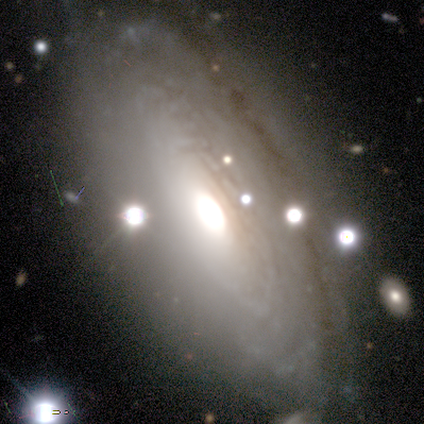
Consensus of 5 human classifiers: smooth-or-featured: featured or disk: 80% | smooth: 20% | star or artifact: 0%
  disk-edge-on: no: 75% | yes: 25%
    bar: no: 100% | strong: 0% | weak: 0%
    has-spiral-arms: yes: 67% | no: 33%
      spiral-winding: tight: 100% | medium: 0% | loose: 0%
      spiral-arm-count: more than 4: 50% (tied) | can't tell: 50% (tied) | 1: 0% | 2: 0% | 3: 0% | 4: 0%
    bulge-size: moderate: 100% | dominant: 0% | large: 0% | small: 0% | none: 0%
  merging: none: 100% | minor disturbance: 0% | major disturbance: 0% | merger: 0%